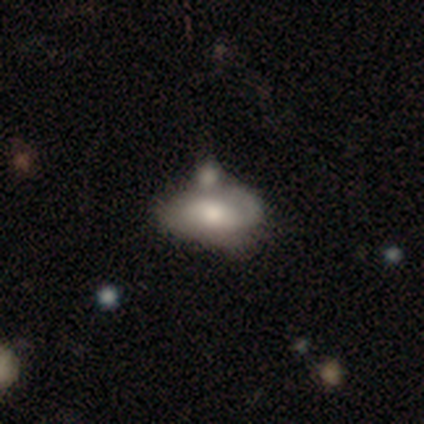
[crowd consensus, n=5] Volunteers were most divided on "spiral winding" (3-way tie): tight: 33%, medium: 33%, loose: 33%. More confident: edge-on disk — no (100%); smooth or featured — featured or disk (80%); bar — no (75%); spiral arms — yes (75%); spiral arm count — 1 (67%); merging — minor disturbance (60%); bulge size — large (50%).